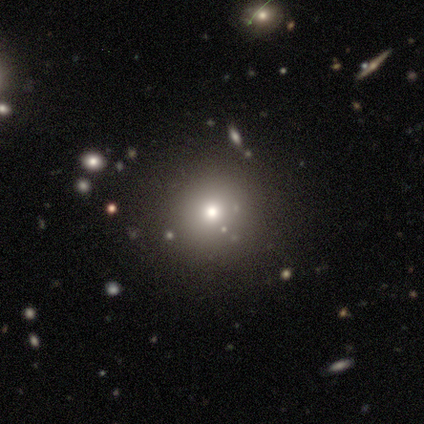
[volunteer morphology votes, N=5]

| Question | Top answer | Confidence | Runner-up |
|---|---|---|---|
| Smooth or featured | smooth | 40% | tied: star or artifact (40%) |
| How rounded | round | 100% | — |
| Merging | none | 100% | — |